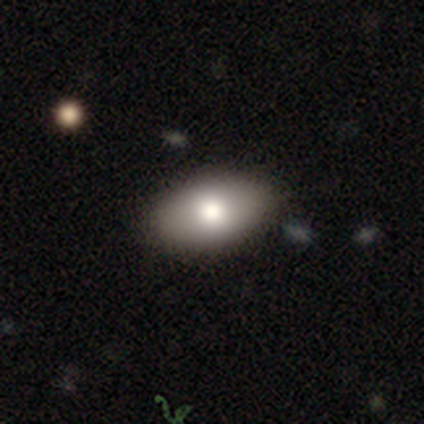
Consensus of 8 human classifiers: smooth 75%, featured or disk 12%, star or artifact 12%. Down the decision tree: how rounded — in between (100%); merging — none (100%).